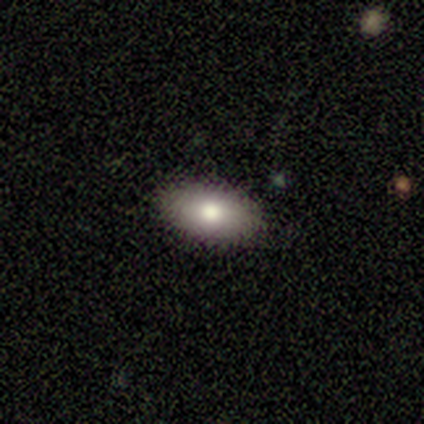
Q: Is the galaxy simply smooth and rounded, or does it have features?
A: smooth — 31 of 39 (79%).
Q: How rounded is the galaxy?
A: in between — 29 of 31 (94%).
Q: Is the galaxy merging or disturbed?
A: none — 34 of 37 (92%).